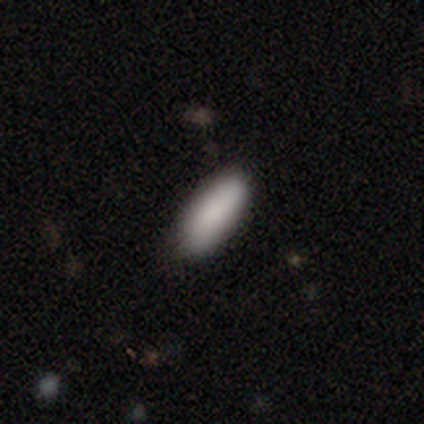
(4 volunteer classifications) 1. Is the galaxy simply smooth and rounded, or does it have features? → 100% smooth, 0% featured or disk, 0% star or artifact.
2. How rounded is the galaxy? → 75% in between, 25% cigar-shaped, 0% round.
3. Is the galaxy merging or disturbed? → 100% none, 0% minor disturbance, 0% major disturbance, 0% merger.